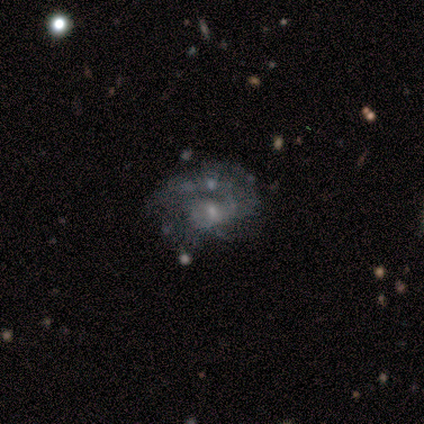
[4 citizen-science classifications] Q: Smooth or featured?
A: featured or disk (100%)
Q: Edge-on disk?
A: no (100%)
Q: Bar?
A: no (100%)
Q: Spiral arms?
A: yes (50%); tied with: no (50%)
Q: Spiral winding?
A: tight (50%); tied with: loose (50%)
Q: Spiral arm count?
A: 1 (50%); tied with: 2 (50%)
Q: Bulge size?
A: moderate (75%); runner-up: small (25%)
Q: Merging?
A: none (50%); runner-up: major disturbance (25%)